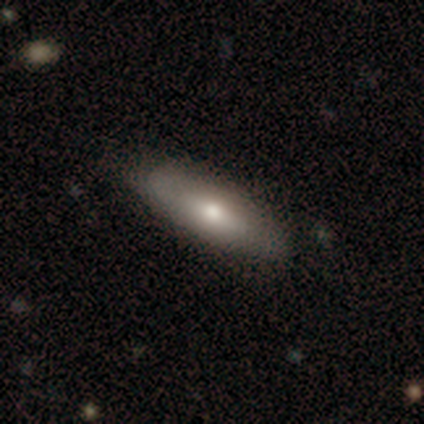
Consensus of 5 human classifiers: Smooth or featured?
  - smooth: 40% * (tied)
  - featured or disk: 40% * (tied)
  - star or artifact: 20%
How rounded?
  - in between: 50% * (tied)
  - cigar-shaped: 50% * (tied)
  - round: 0%
Merging?
  - none: 75% *
  - minor disturbance: 25%
  - major disturbance: 0%
  - merger: 0%